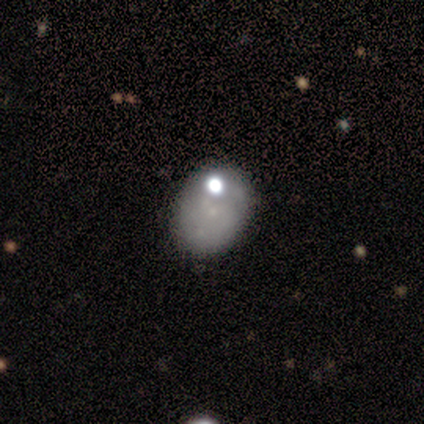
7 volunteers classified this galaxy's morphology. A featured or disk galaxy (71%) with no bar (100%), 1 (33%, tied with 2 and can't tell) tight (100%) spiral arms (60%) and a small central bulge (60%).

Vote fractions:
- Smooth or featured? featured or disk: 71% / smooth: 29% / star or artifact: 0%
- Edge-on disk? no: 100% / yes: 0%
- Bar? no: 100% / strong: 0% / weak: 0%
- Spiral arms? yes: 60% / no: 40%
- Spiral winding? tight: 100% / medium: 0% / loose: 0%
- Spiral arm count? 1: 33% (tied) / 2: 33% (tied) / can't tell: 33% (tied) / 3: 0% / 4: 0% / more than 4: 0%
- Bulge size? small: 60% / moderate: 20% / none: 20% / dominant: 0% / large: 0%
- Merging? none: 100% / minor disturbance: 0% / major disturbance: 0% / merger: 0%